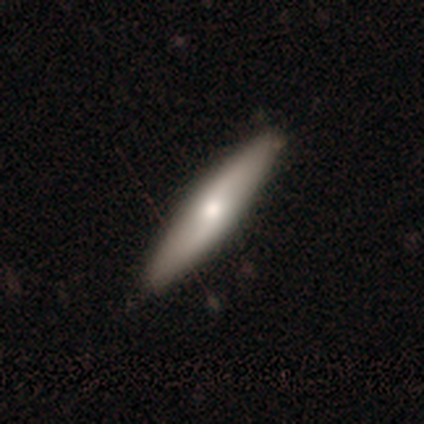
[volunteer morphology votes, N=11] Overall: featured or disk (64%; smooth 36%). Edge-on disk: yes (71%). Edge-on bulge: rounded (80%). Merging: none (82%).